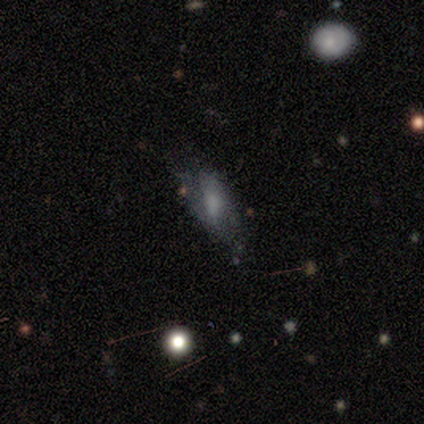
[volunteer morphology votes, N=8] Smooth or featured?
  - smooth: 50% *
  - featured or disk: 38%
  - star or artifact: 12%
How rounded?
  - in between: 100% *
  - round: 0%
  - cigar-shaped: 0%
Merging?
  - none: 43% * (tied)
  - major disturbance: 43% * (tied)
  - minor disturbance: 14%
  - merger: 0%